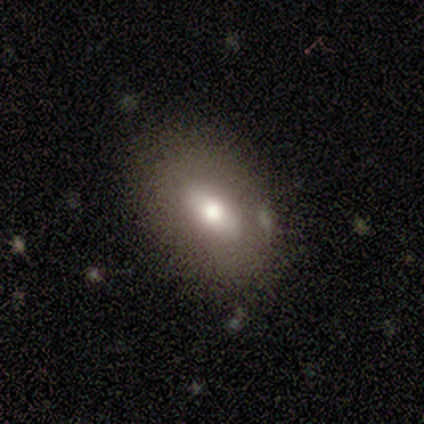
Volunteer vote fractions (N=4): smooth 50% (tied), featured or disk 50% (tied), star or artifact 0%. Down the decision tree: how rounded — in between (100%); merging — none (100%).